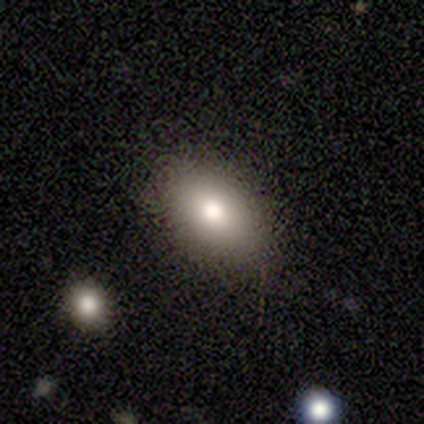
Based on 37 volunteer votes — Morphology: type=smooth (81%); roundness=in between (97%); merging=none (91%).